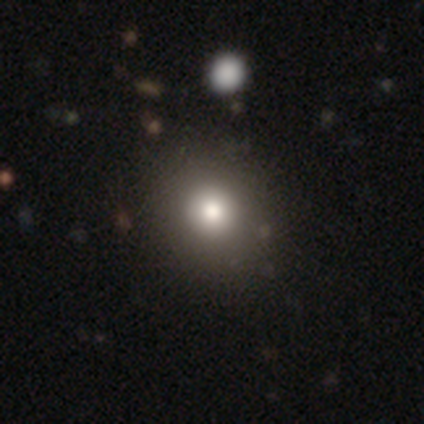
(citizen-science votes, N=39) Smooth or featured? smooth (69%)
How rounded? round (85%)
Merging? none (53%)